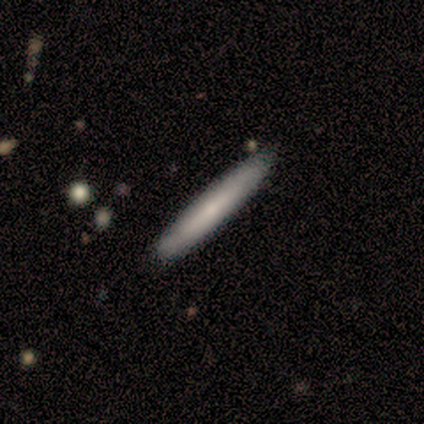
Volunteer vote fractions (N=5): Morphology: type=featured or disk (60%); edge-on=no (67%); bar=weak (50%, tied with no); spiral arms=yes (50%, tied with no); winding=tight (100%); arm count=can't tell (100%); bulge=small (50%, tied with none); merging=none (100%).